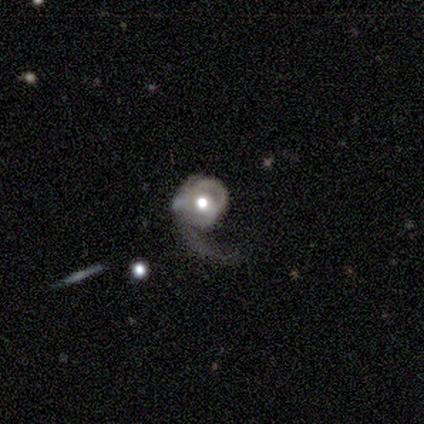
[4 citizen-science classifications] Volunteers were most divided on "spiral arm count" (2-way tie): 1: 50%, can't tell: 50%, 2: 0%, 3: 0%, 4: 0%, more than 4: 0%; "merging" (4-way tie): none: 25%, minor disturbance: 25%, major disturbance: 25%, merger: 25%. More confident: edge-on disk — no (100%); spiral winding — loose (100%); smooth or featured — featured or disk (75%); bar — weak (67%); spiral arms — yes (67%); bulge size — moderate (67%).